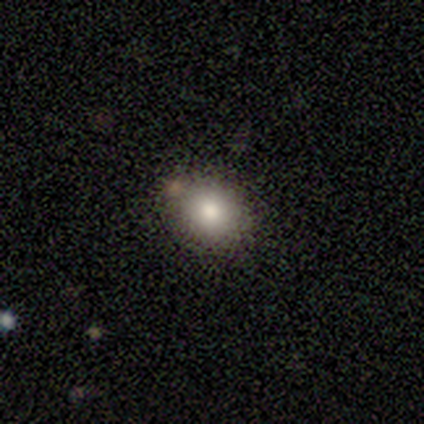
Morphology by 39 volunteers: Smooth or featured?
  - smooth: 85% *
  - star or artifact: 10%
  - featured or disk: 5%
How rounded?
  - round: 58% *
  - in between: 42%
  - cigar-shaped: 0%
Merging?
  - none: 91% *
  - merger: 6%
  - minor disturbance: 3%
  - major disturbance: 0%